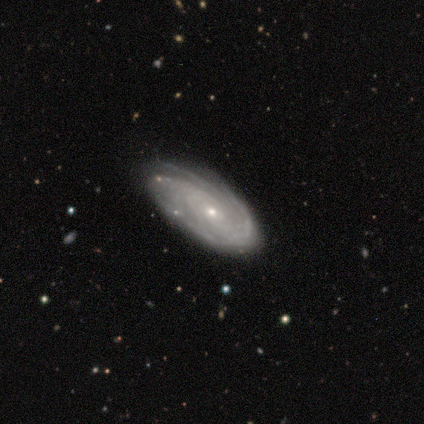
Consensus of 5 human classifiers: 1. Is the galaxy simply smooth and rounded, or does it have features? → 80% featured or disk, 20% smooth, 0% star or artifact.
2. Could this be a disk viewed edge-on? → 75% no, 25% yes.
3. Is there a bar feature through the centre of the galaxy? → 100% no, 0% strong, 0% weak.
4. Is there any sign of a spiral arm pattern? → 100% yes, 0% no.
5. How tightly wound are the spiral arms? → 33% tight (tied), 33% medium (tied), 33% loose (tied).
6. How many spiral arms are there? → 33% 2 (tied), 33% 3 (tied), 33% can't tell (tied), 0% 1, 0% 4, 0% more than 4.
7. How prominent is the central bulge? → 67% small, 33% moderate, 0% dominant, 0% large, 0% none.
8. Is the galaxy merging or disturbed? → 80% none, 20% minor disturbance, 0% major disturbance, 0% merger.